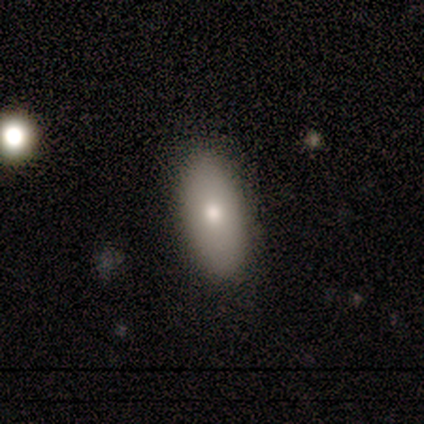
smooth_or_featured: smooth (p=1.00)
how_rounded: in between (p=1.00)
merging: none (p=0.80) [alt: minor disturbance p=0.20]